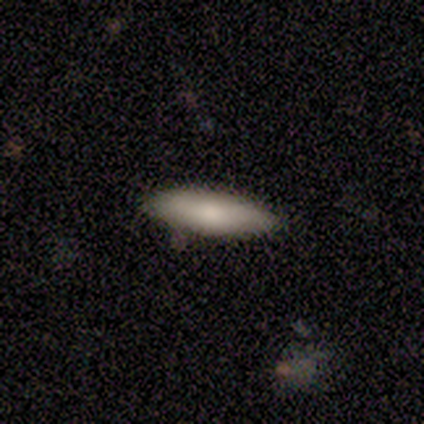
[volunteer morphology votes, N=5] Smooth or featured? smooth (80%)
How rounded? in between (50%, tied with cigar-shaped)
Merging? none (80%)